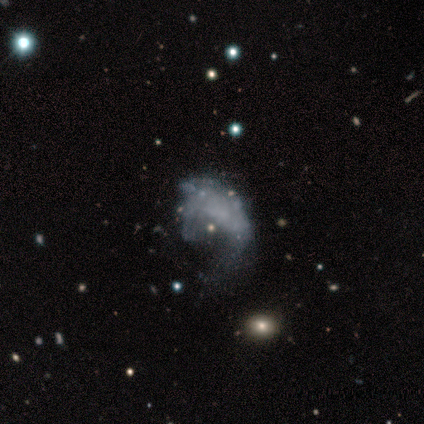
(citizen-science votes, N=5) Smooth or featured? featured or disk (80%)
Edge-on disk? no (100%)
Bar? no (100%)
Spiral arms? no (100%)
Bulge size? none (100%)
Merging? major disturbance (60%)